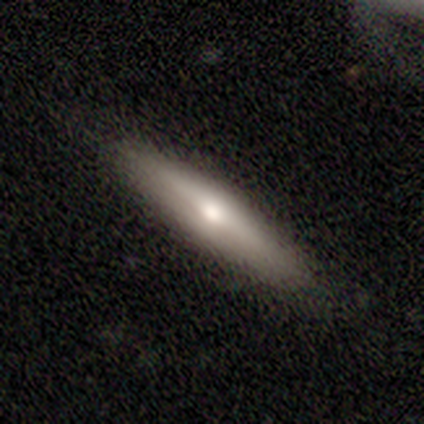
Volunteers were most divided on "edge-on disk": yes: 60%, no: 40%. More confident: merging — none (88%); edge-on bulge — rounded (67%); smooth or featured — featured or disk (50%).